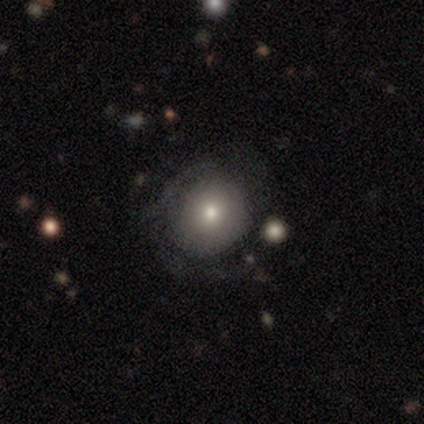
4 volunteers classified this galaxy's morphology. featured or disk 75%, smooth 25%, star or artifact 0%. Down the decision tree: edge-on disk — no (100%); bar — no (67%); spiral arms — no (67%); bulge size — small (67%); merging — none (100%).